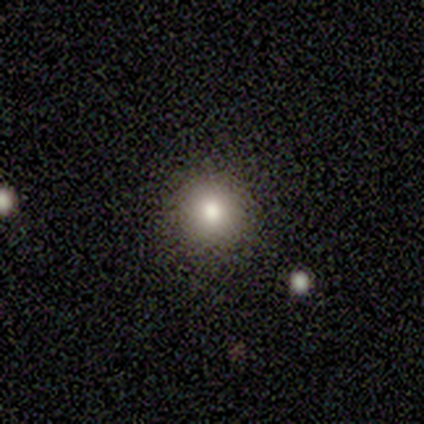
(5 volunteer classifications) A smooth galaxy with no disk features (80%) that is round (100%). Merging: none (60%).